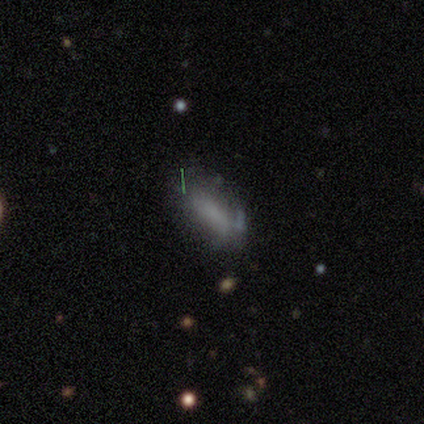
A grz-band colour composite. It shows a smooth galaxy with no disk features (100%) that is cigar-shaped (60%). Merging: none (60%).